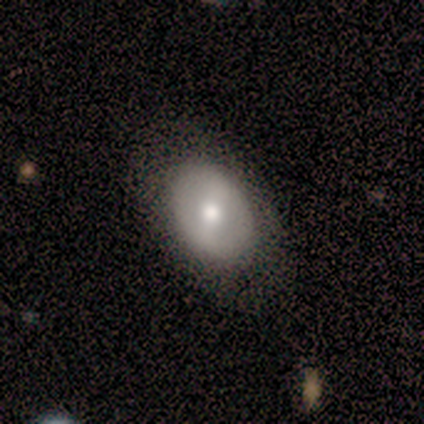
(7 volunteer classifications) Smooth or featured? 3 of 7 (43%) said featured or disk. Edge-on disk? 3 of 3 (100%) said no. Bar? 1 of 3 (33%, tied with weak and no) said strong. Spiral arms? 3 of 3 (100%) said no. Bulge size? 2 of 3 (67%) said moderate. Merging? 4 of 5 (80%) said none.